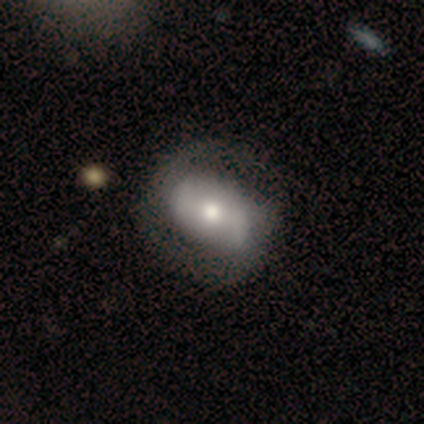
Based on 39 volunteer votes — A featured or disk galaxy (72%) with no bar (62%), 2 (84%) loose (47%) spiral arms (73%) and a moderate central bulge (73%). Merging: none (53%).